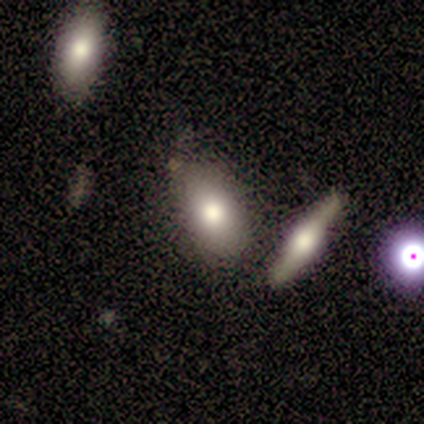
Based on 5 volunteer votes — A smooth galaxy with no disk features (60%) that is in between round and cigar-shaped (67%). Merging: none (25%, tied with minor disturbance, major disturbance and merger).